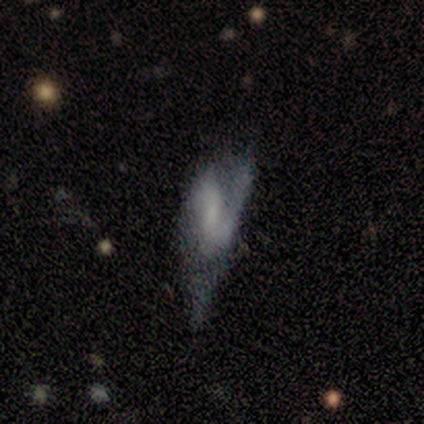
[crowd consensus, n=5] featured or disk 60%, smooth 40%, star or artifact 0%. Down the decision tree: edge-on disk — no (100%); bar — no (67%); spiral arms — yes (67%); spiral arm count — 1 (50%, tied with 2); spiral winding — medium (50%, tied with loose); bulge size — none (67%); merging — minor disturbance (40%, tied with major disturbance).